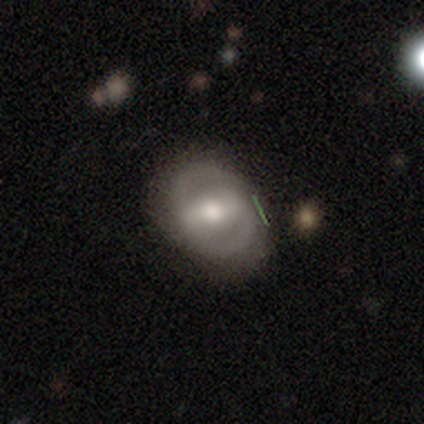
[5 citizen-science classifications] featured or disk 100%, smooth 0%, star or artifact 0%. Down the decision tree: edge-on disk — no (80%); bar — strong (50%, tied with weak); spiral arms — yes (50%, tied with no); spiral arm count — 2 (100%); spiral winding — tight (50%, tied with medium); bulge size — moderate (75%); merging — none (80%).